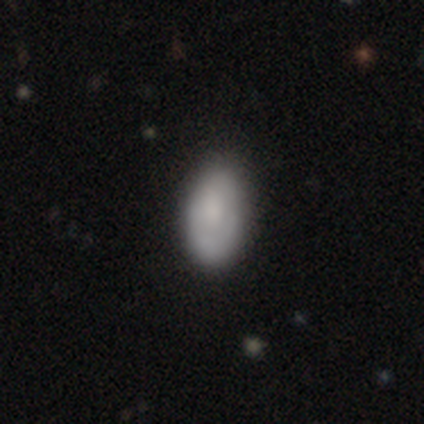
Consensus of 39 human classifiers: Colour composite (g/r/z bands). It shows a smooth galaxy with no disk features (72%) that is in between round and cigar-shaped (96%). Merging: none (53%).